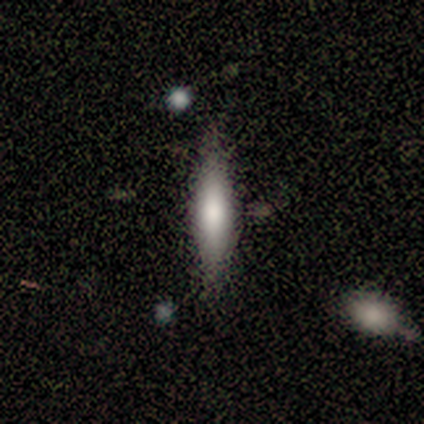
Morphology: type=smooth (65%); roundness=cigar-shaped (81%); merging=none (81%).